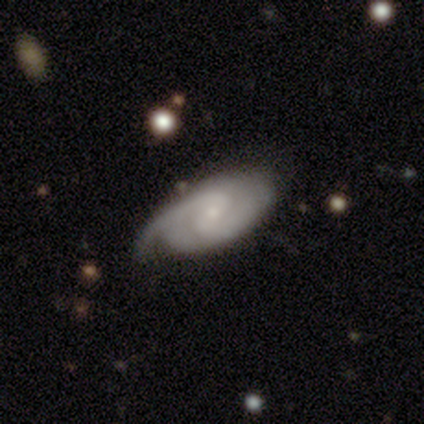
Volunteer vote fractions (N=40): This is clearly a featured or disk galaxy (92%). It is clearly not viewed edge-on (92%). Bar: possibly weak (56%). Spiral arm pattern: clearly yes (100%). Spiral arm count: likely 2 (79%). Spiral winding: marginally medium (41%). Central bulge: likely small (71%). Merging: marginally none (40%).